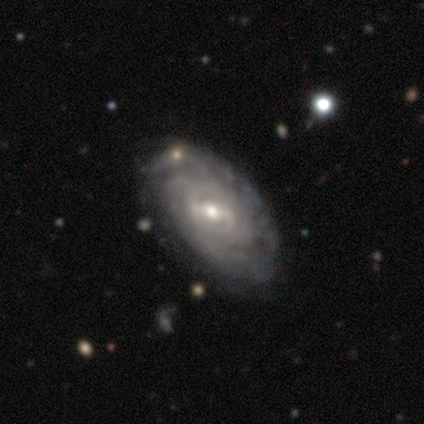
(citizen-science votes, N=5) Smooth or featured?
  - featured or disk: 100% *
  - smooth: 0%
  - star or artifact: 0%
Edge-on disk?
  - no: 80% *
  - yes: 20%
Bar?
  - weak: 50% *
  - strong: 25%
  - no: 25%
Spiral arms?
  - yes: 75% *
  - no: 25%
Spiral winding?
  - tight: 67% *
  - loose: 33%
  - medium: 0%
Spiral arm count?
  - can't tell: 100% *
  - 1: 0%
  - 2: 0%
  - 3: 0%
  - 4: 0%
  - more than 4: 0%
Bulge size?
  - small: 75% *
  - moderate: 25%
  - dominant: 0%
  - large: 0%
  - none: 0%
Merging?
  - none: 60% *
  - minor disturbance: 20%
  - merger: 20%
  - major disturbance: 0%